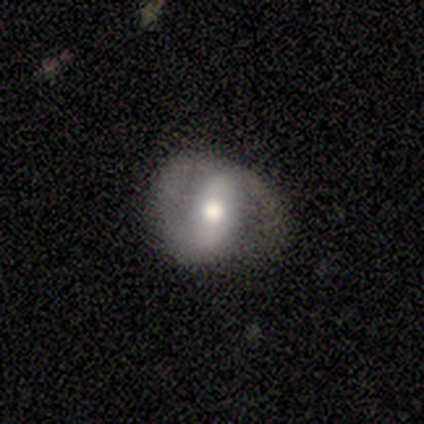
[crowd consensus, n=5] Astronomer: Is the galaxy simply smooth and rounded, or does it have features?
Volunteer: featured or disk — 60% (runner-up: smooth, 40%).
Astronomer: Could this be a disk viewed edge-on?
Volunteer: no — 100%.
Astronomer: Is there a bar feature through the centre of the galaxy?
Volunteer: strong — 33%, tied with weak and no at 33%.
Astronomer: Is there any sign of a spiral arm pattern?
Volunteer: yes — 67%.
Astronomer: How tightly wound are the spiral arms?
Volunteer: tight — 50%, tied with loose at 50%.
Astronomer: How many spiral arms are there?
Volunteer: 2 — 100%.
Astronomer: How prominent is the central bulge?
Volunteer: large — 67%.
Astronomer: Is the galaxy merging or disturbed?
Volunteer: none — 40%, tied with minor disturbance at 40%.